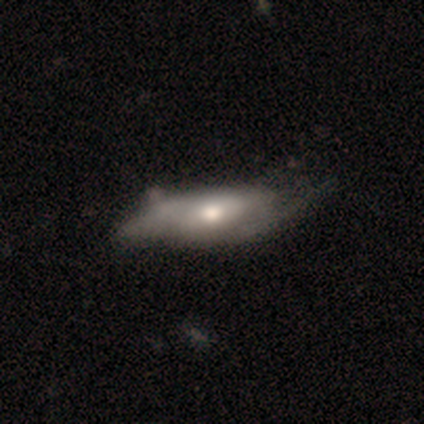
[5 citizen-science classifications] This is likely a featured or disk galaxy (60%). It is clearly not viewed edge-on (100%). Bar: clearly no (100%). Spiral arm pattern: clearly yes (100%). Spiral arm count: clearly 2 (100%). Spiral winding: likely tight (67%). Central bulge: clearly moderate (100%). Merging: likely none (60%).